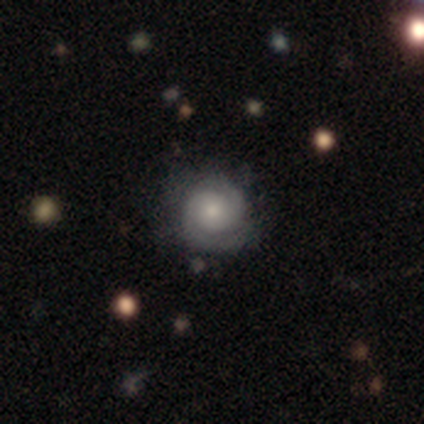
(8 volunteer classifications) Smooth or featured? featured or disk (100%)
Edge-on disk? no (100%)
Bar? no (88%)
Spiral arms? yes (100%)
Spiral winding? tight (88%)
Spiral arm count? 2 (100%)
Bulge size? small (75%)
Merging? none (62%)